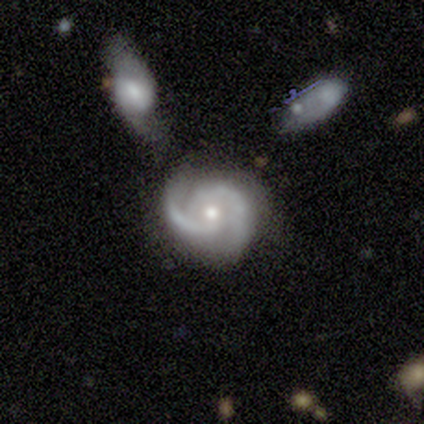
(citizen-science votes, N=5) This is clearly a featured or disk galaxy (100%). It is clearly not viewed edge-on (100%). Bar: clearly no (80%). Spiral arm pattern: clearly yes (100%). Spiral arm count: clearly 2 (100%). Spiral winding: likely tight (60%). Central bulge: likely moderate (60%). Merging: clearly none (80%).